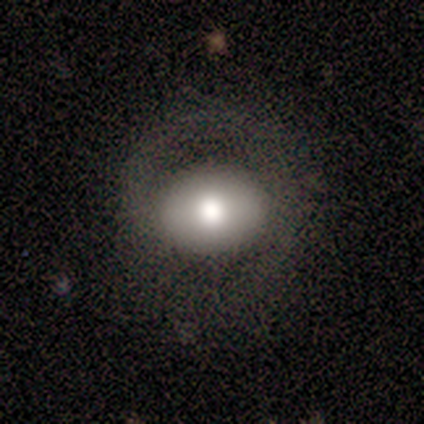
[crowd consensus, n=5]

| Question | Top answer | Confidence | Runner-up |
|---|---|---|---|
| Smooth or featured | featured or disk | 40% | tied: star or artifact (40%) |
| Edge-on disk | no | 100% | — |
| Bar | strong | 50% | tied: no (50%) |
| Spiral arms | yes | 50% | tied: no (50%) |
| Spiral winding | tight | 100% | — |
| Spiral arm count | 2 | 100% | — |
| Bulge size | moderate | 100% | — |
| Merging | none | 100% | — |